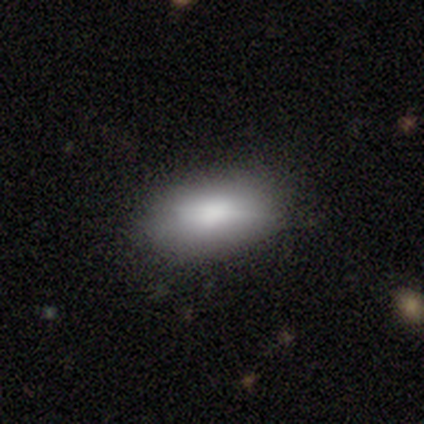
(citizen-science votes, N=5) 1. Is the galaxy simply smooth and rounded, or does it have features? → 40% smooth (tied), 40% featured or disk (tied), 20% star or artifact.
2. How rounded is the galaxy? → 100% in between, 0% round, 0% cigar-shaped.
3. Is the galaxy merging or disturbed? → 100% none, 0% minor disturbance, 0% major disturbance, 0% merger.